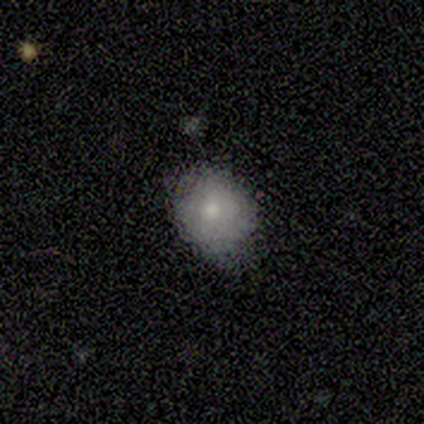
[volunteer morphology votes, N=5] smooth-or-featured: smooth: 80% | star or artifact: 20% | featured or disk: 0%
  how-rounded: round: 75% | in between: 25% | cigar-shaped: 0%
  merging: none: 50% (tied) | minor disturbance: 50% (tied) | major disturbance: 0% | merger: 0%